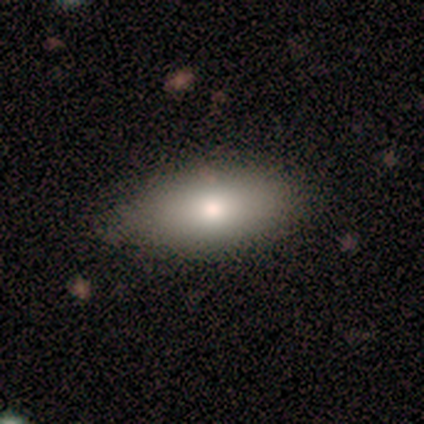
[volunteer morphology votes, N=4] Smooth or featured: smooth — 75% (star or artifact — 25%)
How rounded: in between — 100%
Merging: minor disturbance — 67% (none — 33%)